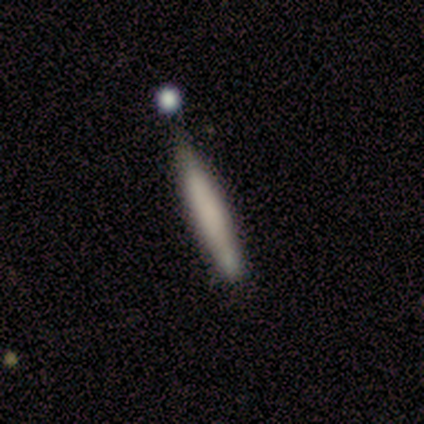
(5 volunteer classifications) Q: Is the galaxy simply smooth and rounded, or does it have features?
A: smooth — 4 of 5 (80%).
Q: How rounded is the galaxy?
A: cigar-shaped — 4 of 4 (100%).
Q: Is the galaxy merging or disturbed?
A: none — 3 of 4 (75%).